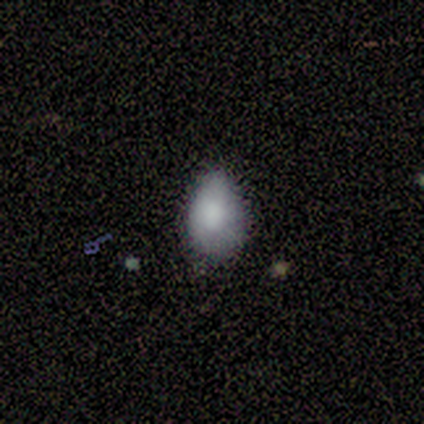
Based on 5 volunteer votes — Morphology: type=smooth (100%); roundness=in between (80%); merging=none (80%).